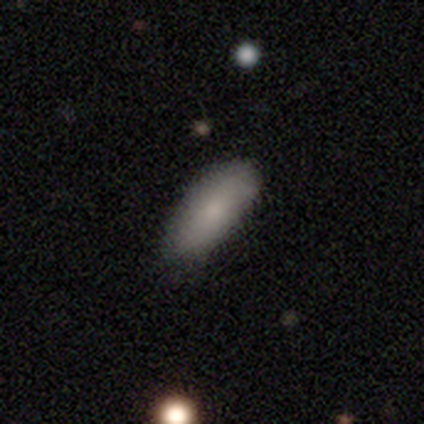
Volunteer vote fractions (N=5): Smooth or featured? smooth (60%)
How rounded? in between (100%)
Merging? none (80%)